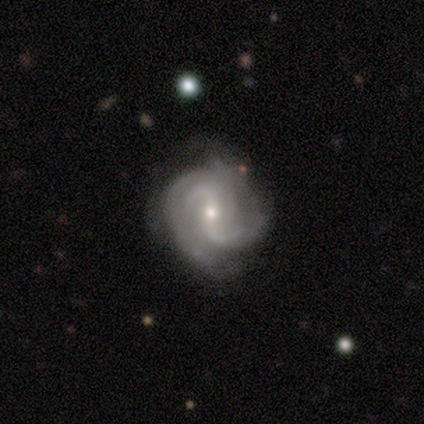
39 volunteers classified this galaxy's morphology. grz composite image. It shows a featured or disk galaxy (92%) with a weak bar (58%), 2 (54%) medium (46%) spiral arms (97%) and a small central bulge (61%). Merging: none (87%).